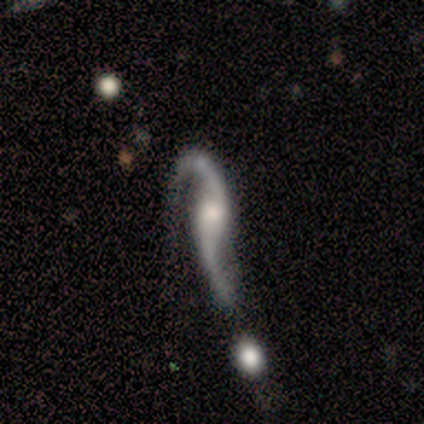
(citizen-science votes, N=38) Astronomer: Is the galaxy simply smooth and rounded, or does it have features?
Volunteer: featured or disk — 87%.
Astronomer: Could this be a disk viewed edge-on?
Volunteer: no — 85%.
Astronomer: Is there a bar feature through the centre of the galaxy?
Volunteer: no — 71%.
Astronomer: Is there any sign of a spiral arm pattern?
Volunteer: yes — 89%.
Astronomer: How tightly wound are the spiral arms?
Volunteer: loose — 96%.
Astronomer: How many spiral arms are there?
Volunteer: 2 — 100%.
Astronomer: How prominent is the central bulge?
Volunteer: moderate — 61%.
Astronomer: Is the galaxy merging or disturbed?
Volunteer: major disturbance — 38% (runner-up: minor disturbance, 30%).